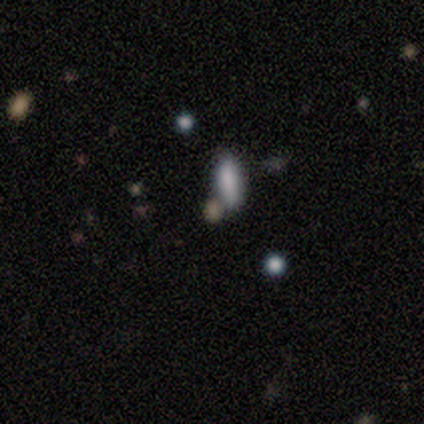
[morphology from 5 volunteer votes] Overall: featured or disk (40%, tied with star or artifact). Edge-on disk: yes (50%, tied with no). Edge-on bulge: rounded (100%). Merging: none (67%; minor disturbance 33%).